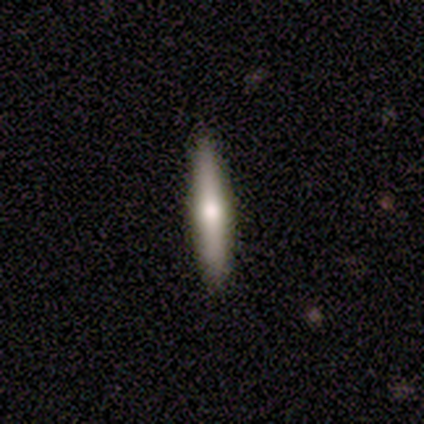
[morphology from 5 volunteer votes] Overall: featured or disk (60%; smooth 40%). Edge-on disk: yes (100%). Edge-on bulge: rounded (100%). Merging: none (100%).